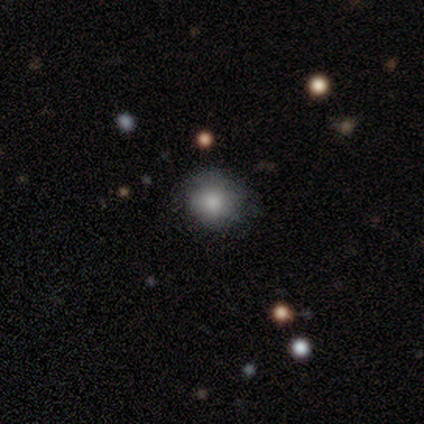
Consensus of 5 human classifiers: Overall: smooth (60%; featured or disk 40%). How rounded: round (67%; in between 33%). Merging: none (80%).